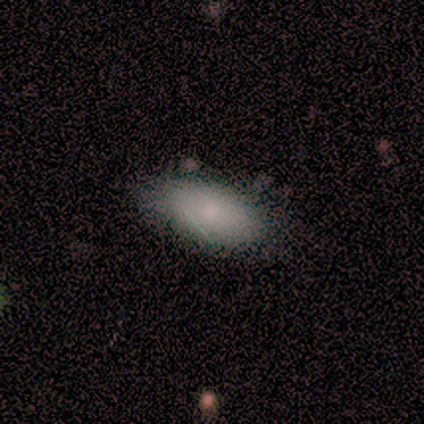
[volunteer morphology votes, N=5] Smooth or featured: smooth — 80% (star or artifact — 20%)
How rounded: in between — 75% (cigar-shaped — 25%)
Merging: none — 100%